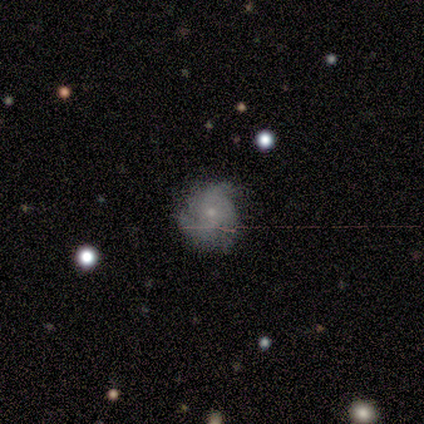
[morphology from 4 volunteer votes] smooth 50% (tied), featured or disk 50% (tied), star or artifact 0%. Down the decision tree: how rounded — round (100%); merging — none (50%).